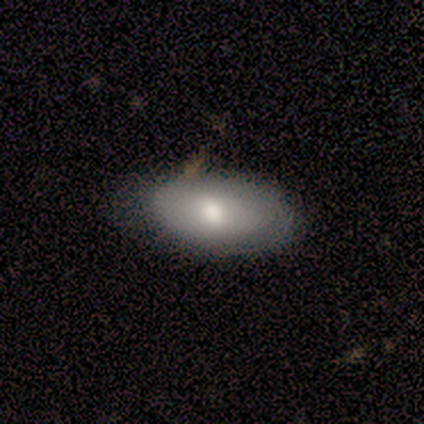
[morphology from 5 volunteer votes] Smooth or featured? 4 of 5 (80%) said smooth. How rounded? 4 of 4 (100%) said in between. Merging? 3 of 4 (75%) said none.